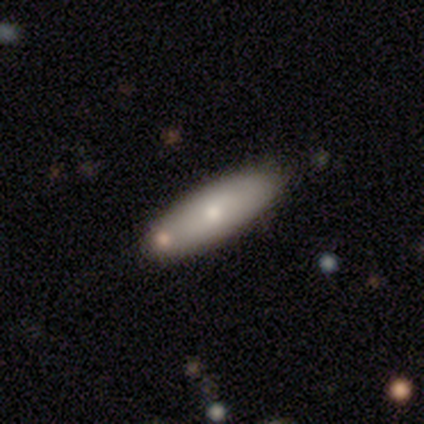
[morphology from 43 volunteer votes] A smooth galaxy with no disk features (70%) that is in between round and cigar-shaped (50%).

Vote fractions:
- Smooth or featured? smooth: 70% / featured or disk: 23% / star or artifact: 7%
- How rounded? in between: 50% / cigar-shaped: 47% / round: 3%
- Merging? none: 80% / minor disturbance: 10% / merger: 8% / major disturbance: 2%